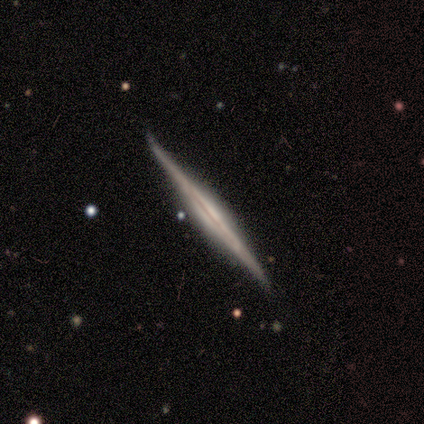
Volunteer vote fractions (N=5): Smooth or featured?
  - featured or disk: 60% *
  - smooth: 40%
  - star or artifact: 0%
Edge-on disk?
  - yes: 100% *
  - no: 0%
Edge-on bulge?
  - boxy: 67% *
  - none: 33%
  - rounded: 0%
Merging?
  - none: 60% *
  - minor disturbance: 20%
  - major disturbance: 20%
  - merger: 0%